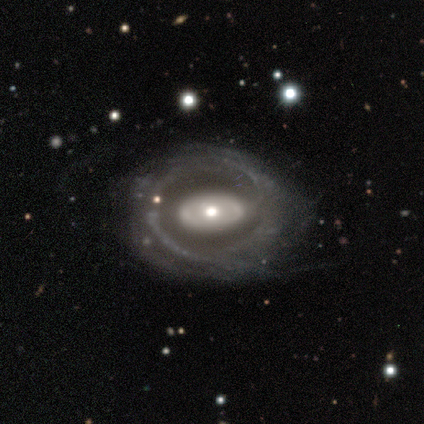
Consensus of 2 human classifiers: This is clearly a featured or disk galaxy (100%). It is clearly not viewed edge-on (100%). Bar: clearly no (100%). Spiral arm pattern: possibly yes (50%, tied with no). Spiral arm count: clearly can't tell (100%). Spiral winding: clearly medium (100%). Central bulge: possibly moderate (50%, tied with small). Merging: clearly none (100%).